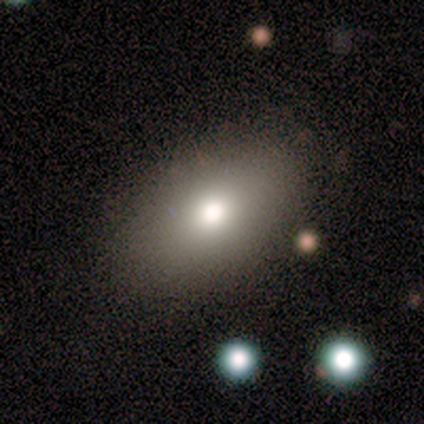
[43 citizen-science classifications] A smooth galaxy with no disk features (84%) that is in between round and cigar-shaped (83%).

Vote fractions:
- Smooth or featured? smooth: 84% / featured or disk: 12% / star or artifact: 5%
- How rounded? in between: 83% / round: 17% / cigar-shaped: 0%
- Merging? none: 83% / minor disturbance: 7% / major disturbance: 5% / merger: 5%